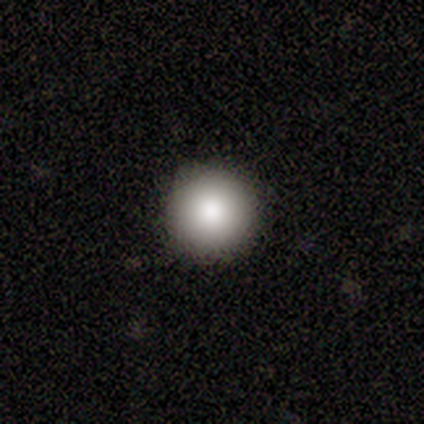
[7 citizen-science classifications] Volunteers were most divided on "smooth or featured": smooth: 71%, star or artifact: 29%, featured or disk: 0%. More confident: how rounded — round (100%); merging — none (80%).